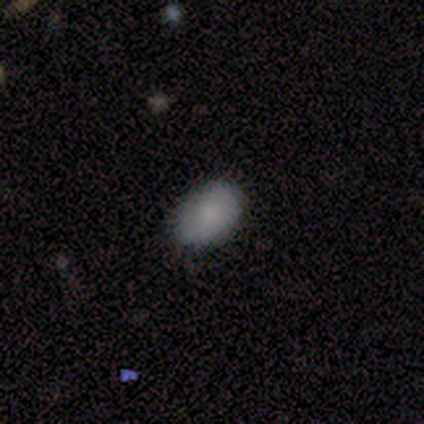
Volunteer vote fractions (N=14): Smooth or featured: smooth — 86% (featured or disk — 7%)
How rounded: in between — 83% (round — 8%)
Merging: none — 92% (minor disturbance — 8%)